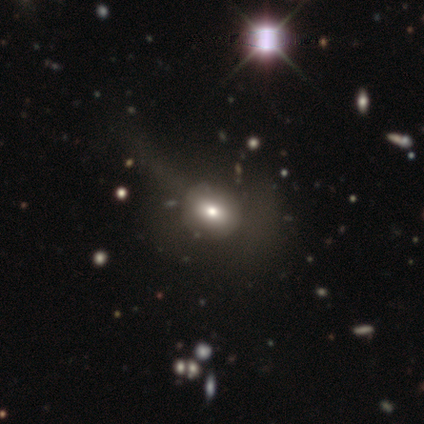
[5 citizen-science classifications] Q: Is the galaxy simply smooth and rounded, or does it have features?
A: featured or disk — 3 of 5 (60%).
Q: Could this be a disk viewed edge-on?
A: no — 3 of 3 (100%).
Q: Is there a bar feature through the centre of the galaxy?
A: no — 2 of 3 (67%).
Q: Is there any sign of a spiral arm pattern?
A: no — 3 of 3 (100%).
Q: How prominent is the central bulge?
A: moderate — 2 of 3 (67%).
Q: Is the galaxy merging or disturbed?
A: none — 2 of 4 (50%).